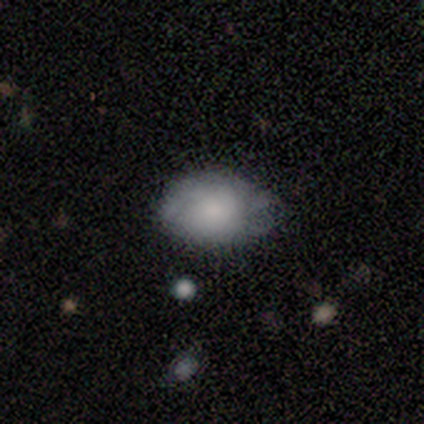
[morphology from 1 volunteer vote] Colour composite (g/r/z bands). It shows a smooth galaxy with no disk features (100%) that is in between round and cigar-shaped (100%). Merging: none (100%).